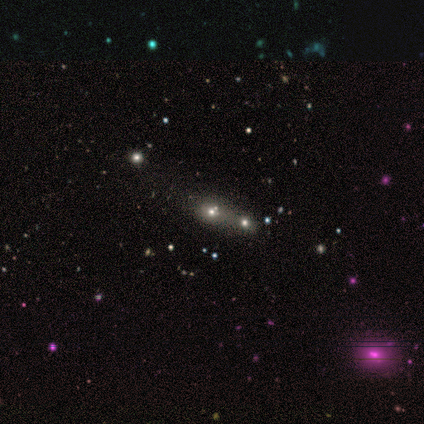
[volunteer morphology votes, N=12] smooth 42% (tied), star or artifact 42% (tied), featured or disk 17%. Down the decision tree: how rounded — in between (80%); merging — merger (57%).